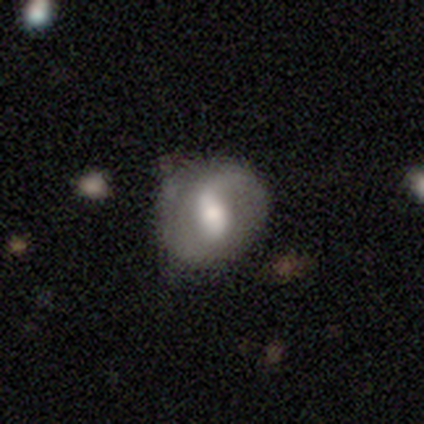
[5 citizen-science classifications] A featured or disk galaxy (80%) with a weak bar (75%), 2 (100%) tight (33%, tied with medium and loose) spiral arms (75%) and a large central bulge (50%, tied with moderate). Merging: none (50%).